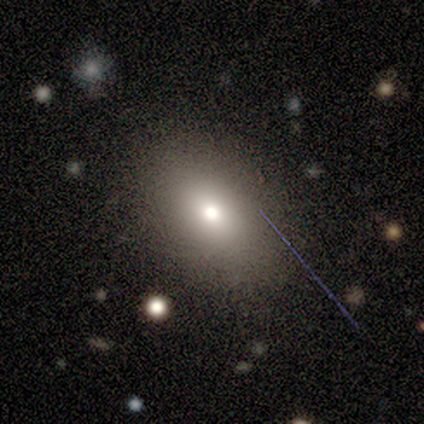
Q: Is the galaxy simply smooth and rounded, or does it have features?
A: smooth — 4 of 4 (100%).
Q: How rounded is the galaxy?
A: in between — 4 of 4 (100%).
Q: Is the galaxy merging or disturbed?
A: none — 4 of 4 (100%).